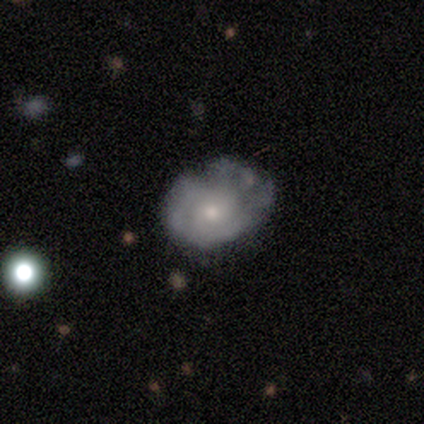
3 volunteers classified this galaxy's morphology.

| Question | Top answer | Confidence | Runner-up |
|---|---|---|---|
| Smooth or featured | featured or disk | 67% | smooth (33%) |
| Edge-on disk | no | 100% | — |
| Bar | no | 100% | — |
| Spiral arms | no | 100% | — |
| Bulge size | moderate | 100% | — |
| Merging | none | 100% | — |